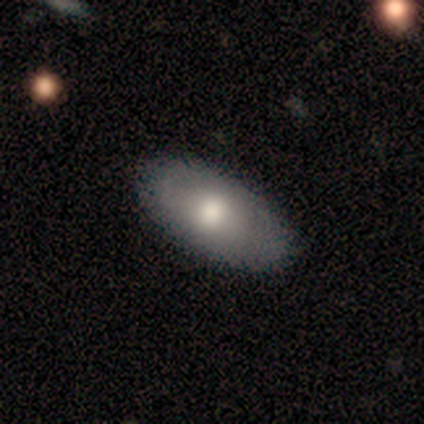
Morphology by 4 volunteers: Volunteers were most divided on "how rounded": in between: 67%, round: 33%, cigar-shaped: 0%. More confident: merging — none (100%); smooth or featured — smooth (75%).